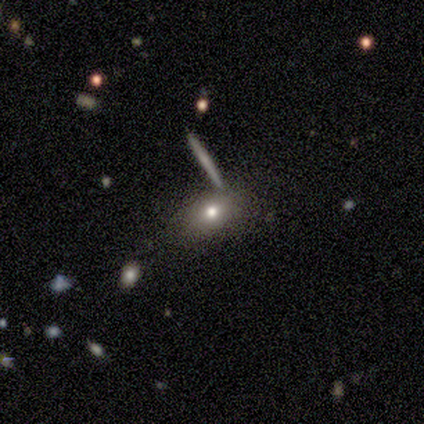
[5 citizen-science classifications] Smooth or featured?
  - smooth: 40% * (tied)
  - featured or disk: 40% * (tied)
  - star or artifact: 20%
How rounded?
  - in between: 100% *
  - round: 0%
  - cigar-shaped: 0%
Merging?
  - minor disturbance: 75% *
  - none: 25%
  - major disturbance: 0%
  - merger: 0%